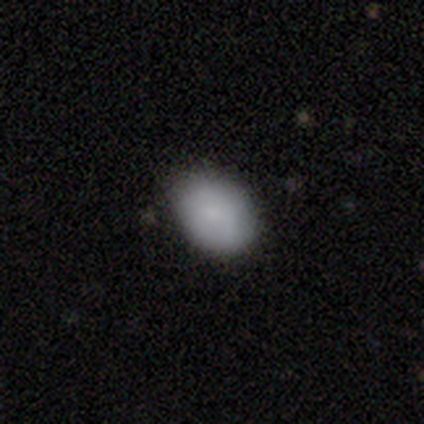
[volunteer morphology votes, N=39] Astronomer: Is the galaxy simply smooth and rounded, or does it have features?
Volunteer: smooth — 85%.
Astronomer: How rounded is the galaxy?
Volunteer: in between — 67%.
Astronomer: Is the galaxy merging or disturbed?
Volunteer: none — 76%.